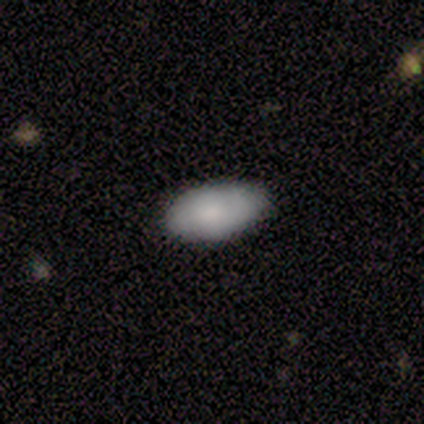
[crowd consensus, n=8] Overall: smooth (100%). How rounded: in between (100%). Merging: none (88%).